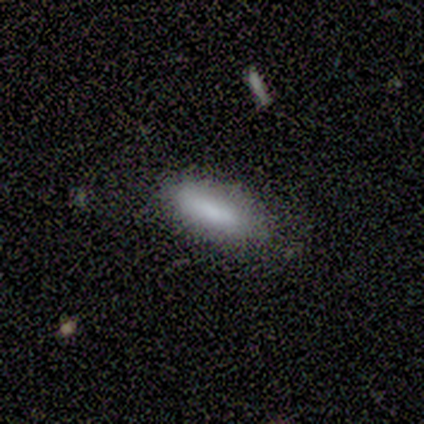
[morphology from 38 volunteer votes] This appears to be a smooth galaxy with no disk features (82%) that is in between round and cigar-shaped (58%). Merging: none (85%).